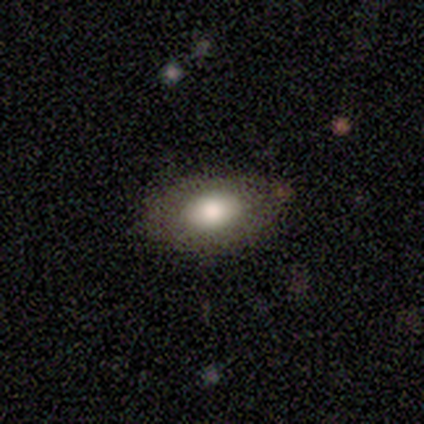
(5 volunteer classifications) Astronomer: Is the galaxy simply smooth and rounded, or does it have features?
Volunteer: smooth — 80%.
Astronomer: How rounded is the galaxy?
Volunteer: in between — 100%.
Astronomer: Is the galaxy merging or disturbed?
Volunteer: none — 80%.